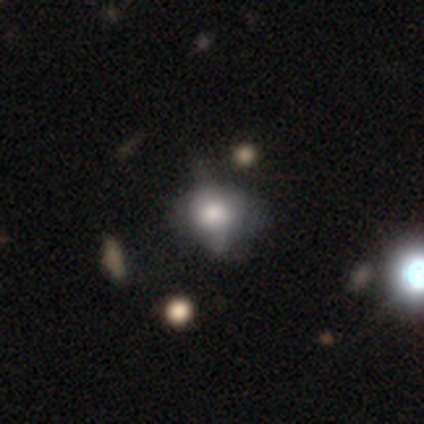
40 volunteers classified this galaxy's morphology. A smooth galaxy with no disk features (55%) that is round (73%). Merging: none (44%).